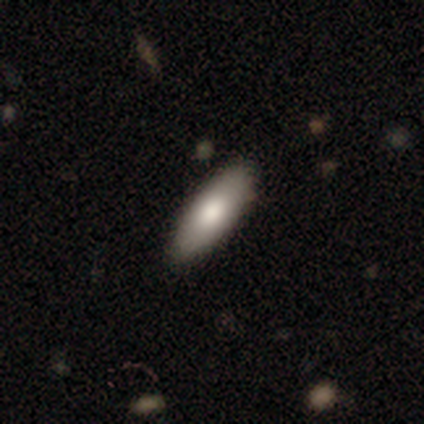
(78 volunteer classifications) This appears to be a smooth galaxy with no disk features (87%) that is in between round and cigar-shaped (60%). Merging: none (56%).